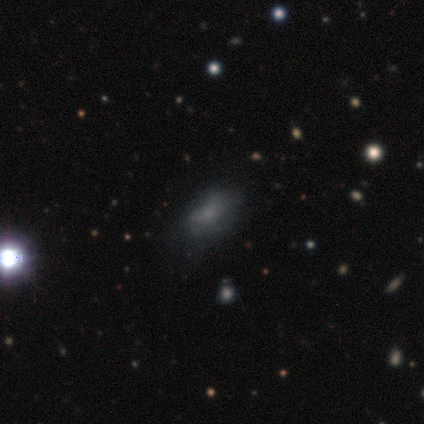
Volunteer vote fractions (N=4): Q: Smooth or featured?
A: star or artifact (50%); runner-up: smooth (25%)